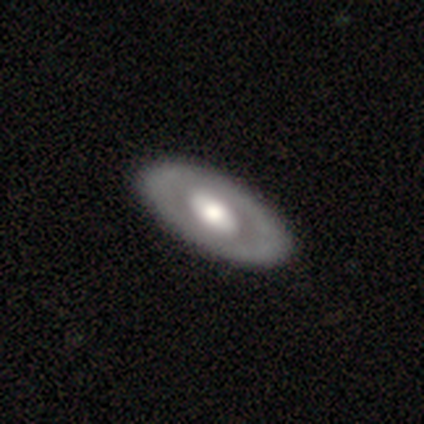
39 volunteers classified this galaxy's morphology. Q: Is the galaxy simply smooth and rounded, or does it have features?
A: featured or disk — 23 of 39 (59%).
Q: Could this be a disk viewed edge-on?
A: no — 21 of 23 (91%).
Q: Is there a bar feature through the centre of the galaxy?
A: no — 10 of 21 (48%).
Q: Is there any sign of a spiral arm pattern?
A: no — 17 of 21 (81%).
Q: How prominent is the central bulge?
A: large — 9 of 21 (43%, tied with moderate).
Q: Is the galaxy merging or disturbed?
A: none — 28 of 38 (74%).